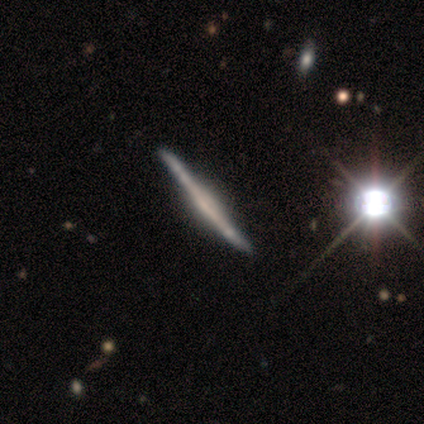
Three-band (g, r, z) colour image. It shows a featured or disk galaxy (80%) viewed edge-on (100%) with a rounded central bulge (50%). Merging: none (80%).